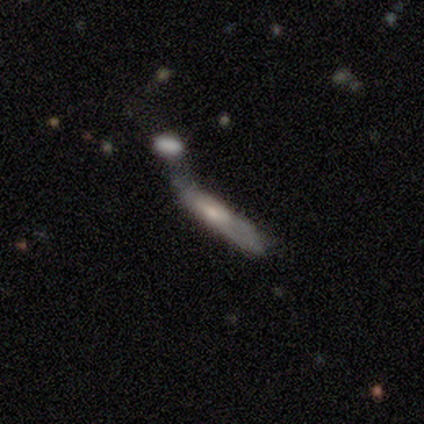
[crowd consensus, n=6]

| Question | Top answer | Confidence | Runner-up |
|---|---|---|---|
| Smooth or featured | smooth | 100% | — |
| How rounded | cigar-shaped | 100% | — |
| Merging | none | 67% | minor disturbance (17%) |